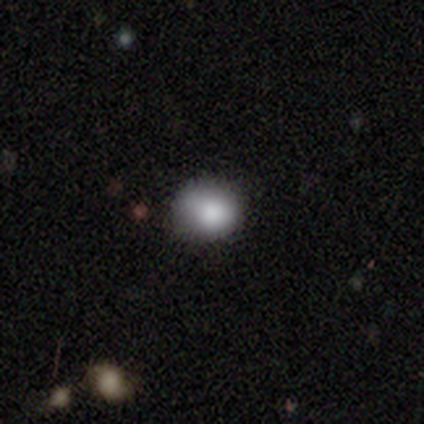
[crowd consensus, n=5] smooth_or_featured: smooth (p=1.00)
how_rounded: round (p=0.80) [alt: in between p=0.20]
merging: none (p=0.80) [alt: minor disturbance p=0.20]